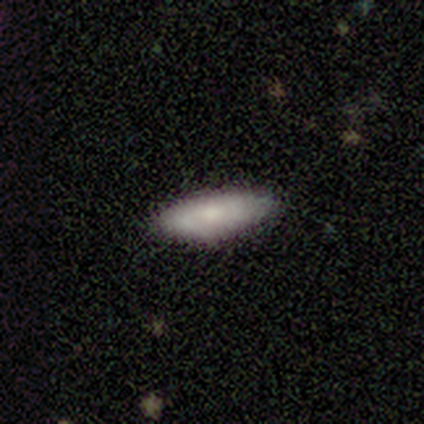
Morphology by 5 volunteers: smooth_or_featured: smooth (p=0.80) [alt: featured or disk p=0.20]
how_rounded: in between (p=0.50) [tied with: cigar-shaped p=0.50]
merging: none (p=1.00)